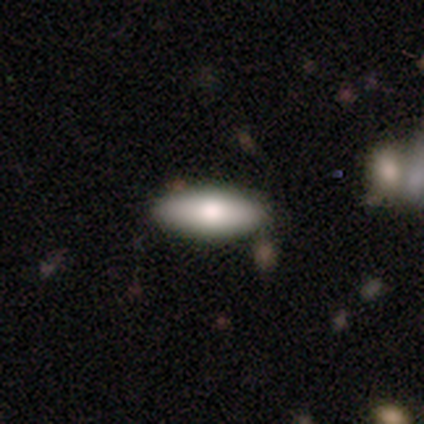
Smooth or featured: smooth — 88% (featured or disk — 12%)
How rounded: in between — 100%
Merging: none — 100%